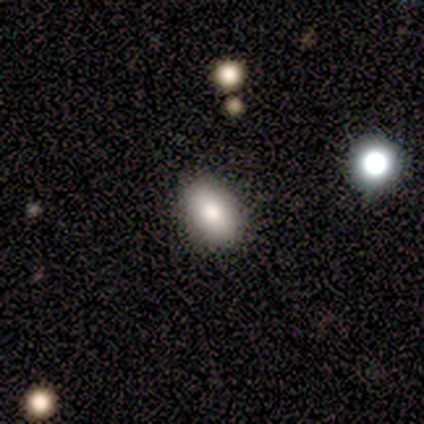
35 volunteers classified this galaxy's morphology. Smooth or featured? smooth (86%)
How rounded? in between (87%)
Merging? none (91%)